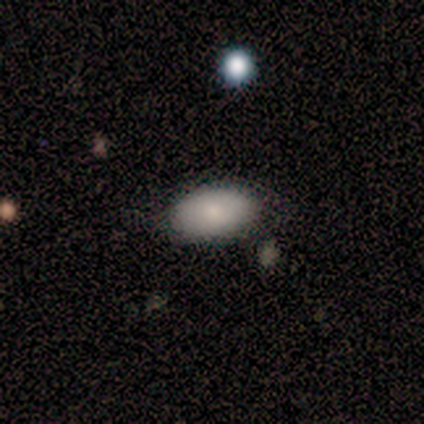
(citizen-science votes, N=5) Smooth or featured? smooth (60%)
How rounded? in between (100%)
Merging? none (100%)